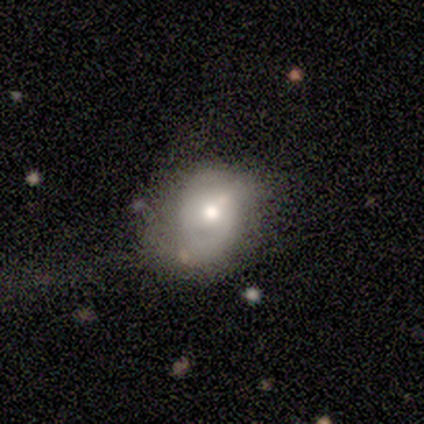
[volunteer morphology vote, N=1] Smooth or featured? 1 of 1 (100%) said featured or disk. Edge-on disk? 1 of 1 (100%) said no. Bar? 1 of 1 (100%) said no. Spiral arms? 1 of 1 (100%) said no. Bulge size? 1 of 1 (100%) said large. Merging? 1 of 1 (100%) said major disturbance.